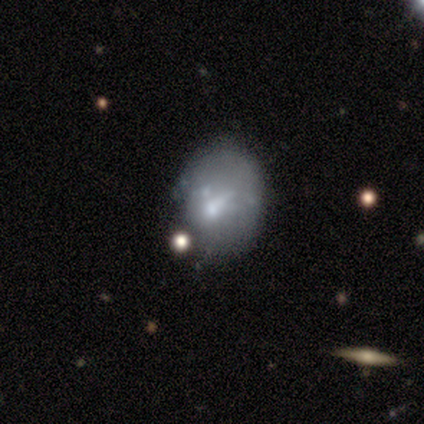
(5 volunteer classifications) featured or disk 80%, smooth 20%, star or artifact 0%. Down the decision tree: edge-on disk — no (100%); bar — weak (50%, tied with no); spiral arms — no (100%); bulge size — moderate (75%); merging — none (40%, tied with minor disturbance).